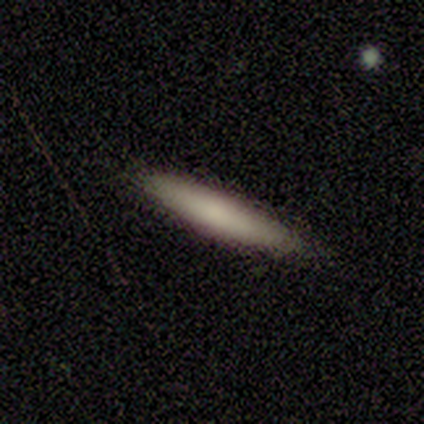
Smooth or featured?
  - smooth: 80% *
  - star or artifact: 20%
  - featured or disk: 0%
How rounded?
  - cigar-shaped: 100% *
  - round: 0%
  - in between: 0%
Merging?
  - none: 100% *
  - minor disturbance: 0%
  - major disturbance: 0%
  - merger: 0%